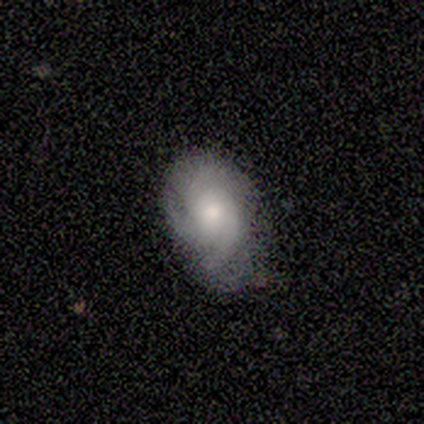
Smooth or featured? 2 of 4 (50%) said featured or disk. Edge-on disk? 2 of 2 (100%) said no. Bar? 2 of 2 (100%) said no. Spiral arms? 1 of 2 (50%, tied with no) said yes. Spiral winding? 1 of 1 (100%) said tight. Spiral arm count? 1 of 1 (100%) said can't tell. Bulge size? 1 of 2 (50%, tied with small) said moderate. Merging? 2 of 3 (67%) said none.